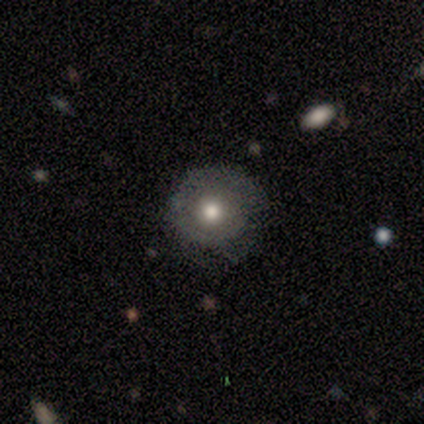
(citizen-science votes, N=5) Overall: featured or disk (60%; smooth 40%). Edge-on disk: no (100%). Bar: no (100%). Spiral arms: no (100%). Bulge size: moderate (100%). Merging: none (80%).